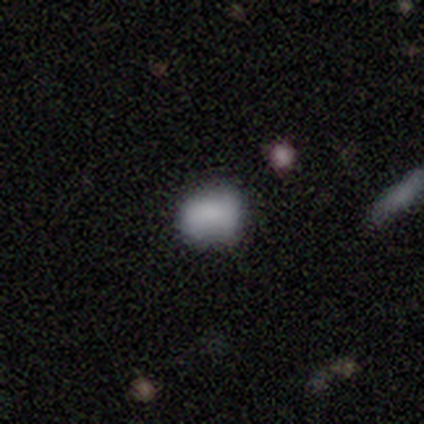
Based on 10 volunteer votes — Morphology: type=smooth (80%); roundness=in between (88%); merging=none (44%).